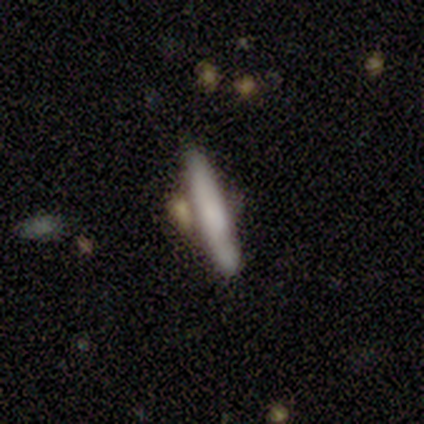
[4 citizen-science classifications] Morphology: type=smooth (50%, tied with featured or disk); roundness=cigar-shaped (100%); merging=none (50%).